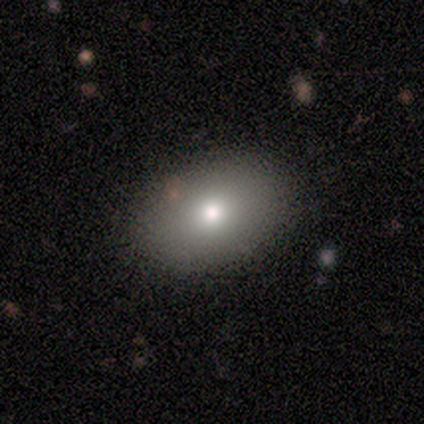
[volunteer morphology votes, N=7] Volunteers were most divided on "smooth or featured": smooth: 71%, featured or disk: 29%, star or artifact: 0%. More confident: how rounded — in between (100%); merging — none (86%).